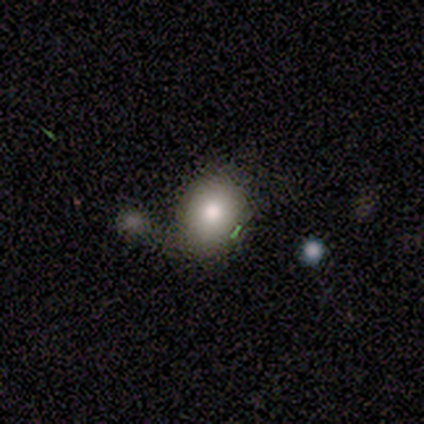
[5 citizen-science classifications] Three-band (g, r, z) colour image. It shows a smooth galaxy with no disk features (80%) that is round (50%, tied with in between). Merging: minor disturbance (50%).